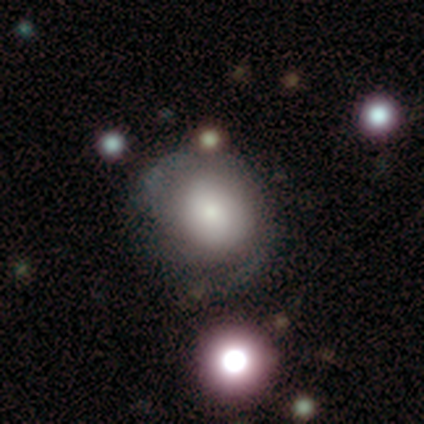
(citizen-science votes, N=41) smooth_or_featured: smooth (p=0.66) [alt: featured or disk p=0.20]
how_rounded: round (p=0.89) [alt: in between p=0.11]
merging: none (p=0.57) [alt: minor disturbance p=0.26]